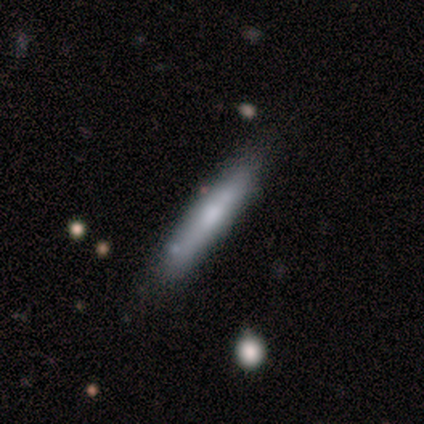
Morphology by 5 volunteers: type=featured or disk (80%); edge-on=yes (100%); edge-on bulge=rounded (100%); merging=none (60%).